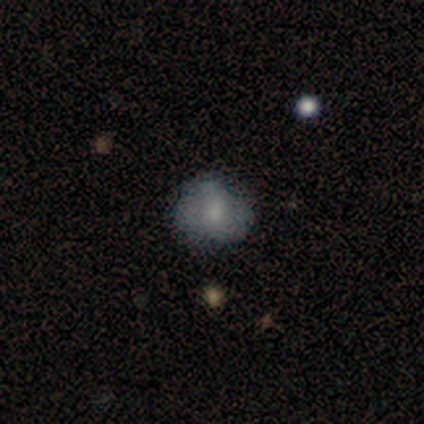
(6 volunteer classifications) Overall: smooth (67%). How rounded: round (100%). Merging: none (100%).